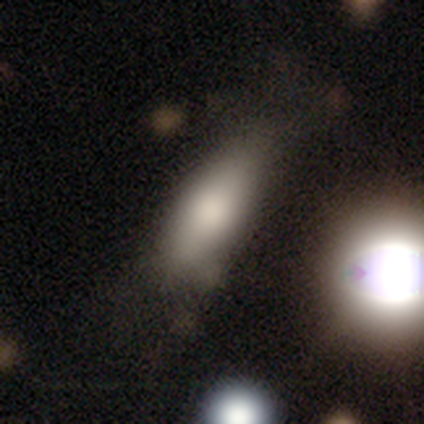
Volunteers were most divided on "merging": none: 56%, minor disturbance: 26%, major disturbance: 15%, merger: 3%. More confident: how rounded — in between (86%); smooth or featured — smooth (76%).